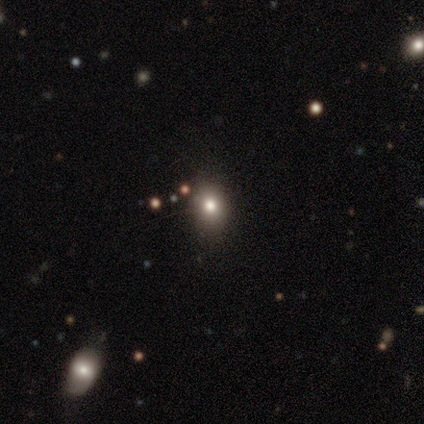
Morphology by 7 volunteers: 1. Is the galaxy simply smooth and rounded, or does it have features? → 43% smooth (tied), 43% star or artifact (tied), 14% featured or disk.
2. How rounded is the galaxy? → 67% in between, 33% round, 0% cigar-shaped.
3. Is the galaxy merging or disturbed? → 100% none, 0% minor disturbance, 0% major disturbance, 0% merger.